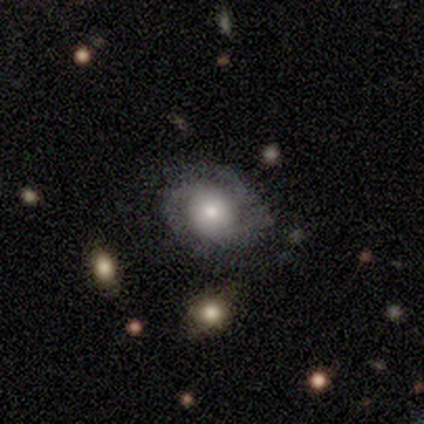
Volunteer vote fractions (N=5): Smooth or featured? featured or disk (60%)
Edge-on disk? no (100%)
Bar? no (100%)
Spiral arms? yes (100%)
Spiral winding? tight (100%)
Spiral arm count? 2 (67%)
Bulge size? moderate (67%)
Merging? none (100%)